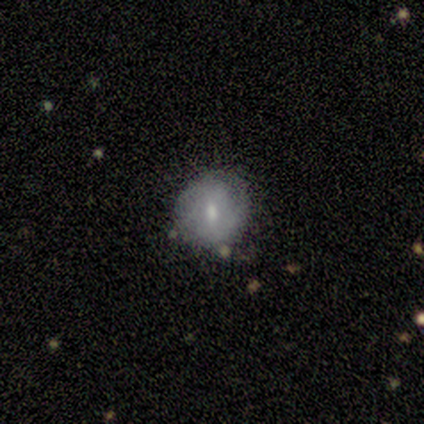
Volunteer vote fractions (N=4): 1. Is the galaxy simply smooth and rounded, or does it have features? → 75% smooth, 25% featured or disk, 0% star or artifact.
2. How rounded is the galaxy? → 67% round, 33% in between, 0% cigar-shaped.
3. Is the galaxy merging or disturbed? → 100% none, 0% minor disturbance, 0% major disturbance, 0% merger.